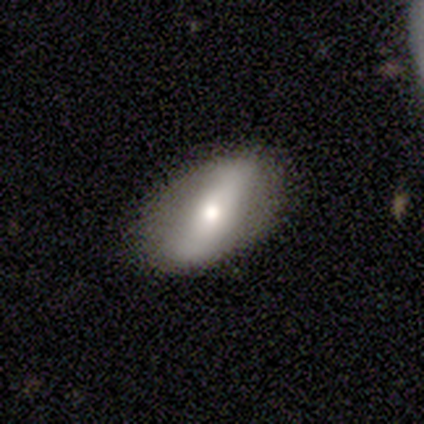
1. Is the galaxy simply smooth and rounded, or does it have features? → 50% smooth, 48% featured or disk, 2% star or artifact.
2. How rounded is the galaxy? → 85% in between, 10% cigar-shaped, 5% round.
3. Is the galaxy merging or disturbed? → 77% none, 15% minor disturbance, 5% major disturbance, 3% merger.